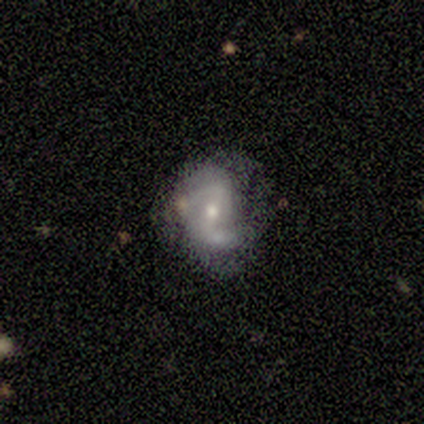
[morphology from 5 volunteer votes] A featured or disk galaxy (100%) with a weak bar (100%), 2 (100%) loose (75%) spiral arms (80%) and a moderate central bulge (60%). Merging: minor disturbance (60%).